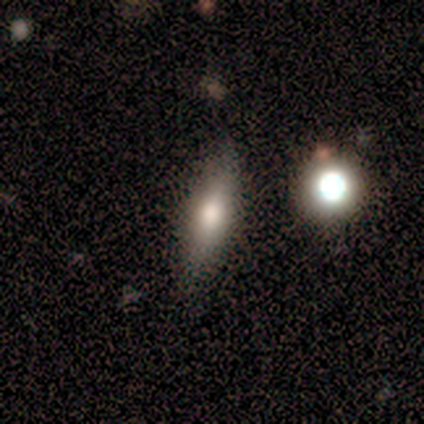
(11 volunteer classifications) Q: Smooth or featured?
A: smooth (45%); tied with: featured or disk (45%)
Q: How rounded?
A: cigar-shaped (80%); runner-up: in between (20%)
Q: Merging?
A: none (100%)